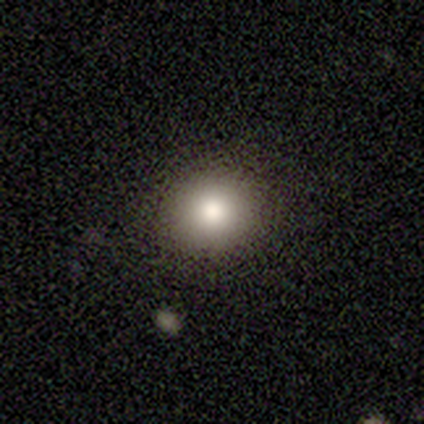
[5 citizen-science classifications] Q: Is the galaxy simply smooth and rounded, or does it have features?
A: smooth — 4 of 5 (80%).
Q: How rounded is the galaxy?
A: round — 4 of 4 (100%).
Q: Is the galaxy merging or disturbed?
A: none — 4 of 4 (100%).